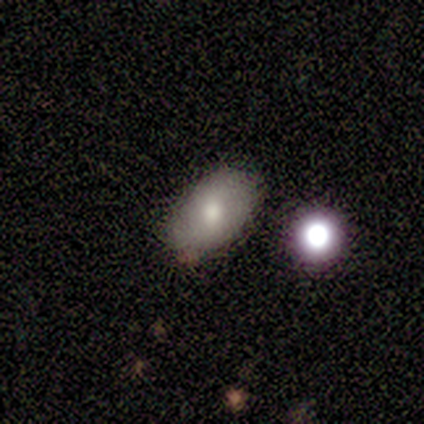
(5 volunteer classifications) Smooth or featured? smooth (100%)
How rounded? in between (100%)
Merging? none (100%)